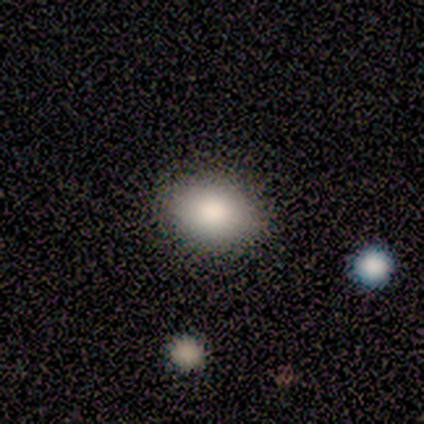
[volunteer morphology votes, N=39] smooth 87%, star or artifact 8%, featured or disk 5%. Down the decision tree: how rounded — in between (79%); merging — none (72%).